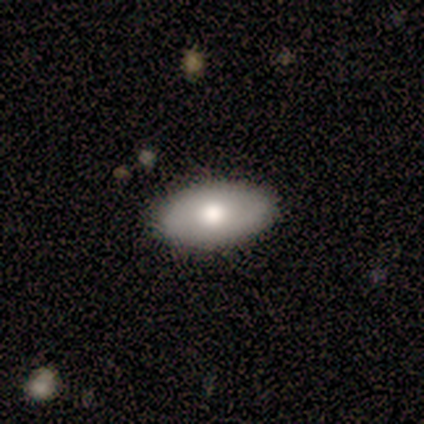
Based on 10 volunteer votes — A smooth galaxy with no disk features (80%) that is in between round and cigar-shaped (100%).

Vote fractions:
- Smooth or featured? smooth: 80% / featured or disk: 20% / star or artifact: 0%
- How rounded? in between: 100% / round: 0% / cigar-shaped: 0%
- Merging? none: 90% / minor disturbance: 10% / major disturbance: 0% / merger: 0%